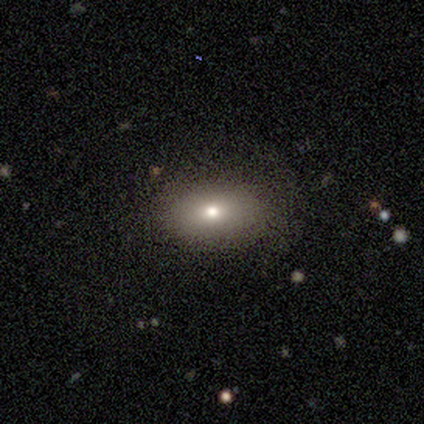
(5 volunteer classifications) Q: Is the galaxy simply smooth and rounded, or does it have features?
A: smooth — 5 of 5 (100%).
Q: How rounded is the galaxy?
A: in between — 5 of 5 (100%).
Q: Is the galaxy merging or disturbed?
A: none — 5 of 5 (100%).